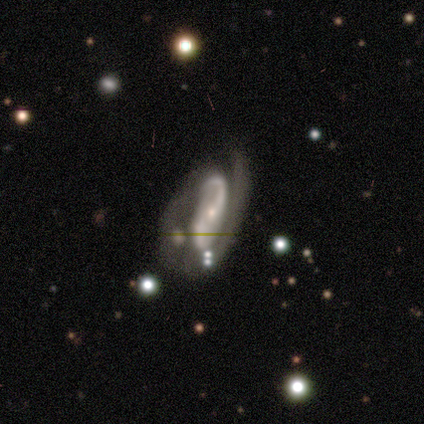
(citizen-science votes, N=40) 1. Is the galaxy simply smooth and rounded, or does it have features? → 95% featured or disk, 5% smooth, 0% star or artifact.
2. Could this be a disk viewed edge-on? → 97% no, 3% yes.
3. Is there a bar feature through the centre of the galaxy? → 51% no, 32% weak, 16% strong.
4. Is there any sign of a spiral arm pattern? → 97% yes, 3% no.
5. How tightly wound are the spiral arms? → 47% medium, 39% loose, 14% tight.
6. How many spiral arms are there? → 83% 2, 11% 1, 3% 3, 3% can't tell, 0% 4, 0% more than 4.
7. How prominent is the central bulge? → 78% small, 19% moderate, 3% none, 0% dominant, 0% large.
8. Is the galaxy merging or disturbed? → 22% minor disturbance, 20% major disturbance, 12% none, 10% merger.